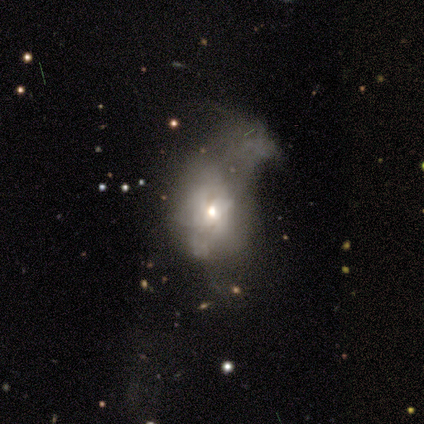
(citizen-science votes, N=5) This appears to be a smooth galaxy with no disk features (60%) that is in between round and cigar-shaped (67%). Merging: major disturbance (60%).